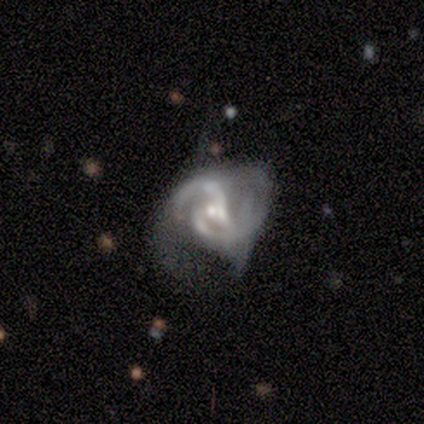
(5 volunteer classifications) Overall: featured or disk (100%). Edge-on disk: no (100%). Bar: no (60%; weak 40%). Spiral arms: yes (100%). Spiral arm count: 2 (40%, tied with 3). Spiral winding: medium (60%; tight 40%). Bulge size: small (80%). Merging: none (60%; merger 40%).